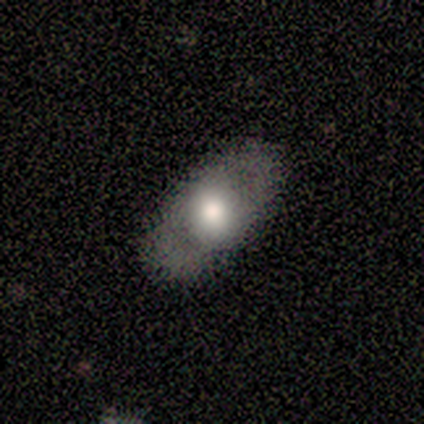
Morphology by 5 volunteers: A smooth galaxy with no disk features (60%) that is in between round and cigar-shaped (100%).

Vote fractions:
- Smooth or featured? smooth: 60% / featured or disk: 40% / star or artifact: 0%
- How rounded? in between: 100% / round: 0% / cigar-shaped: 0%
- Merging? none: 100% / minor disturbance: 0% / major disturbance: 0% / merger: 0%